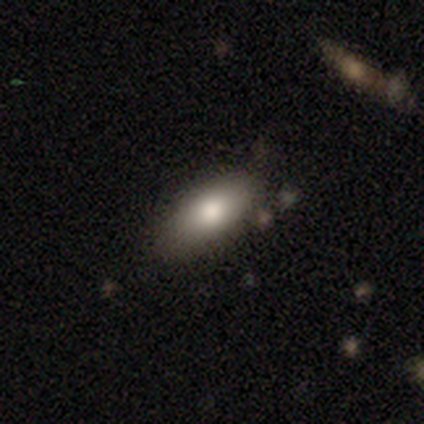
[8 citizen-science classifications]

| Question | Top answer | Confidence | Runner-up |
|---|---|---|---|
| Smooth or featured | smooth | 100% | — |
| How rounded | in between | 100% | — |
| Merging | none | 62% | minor disturbance (38%) |